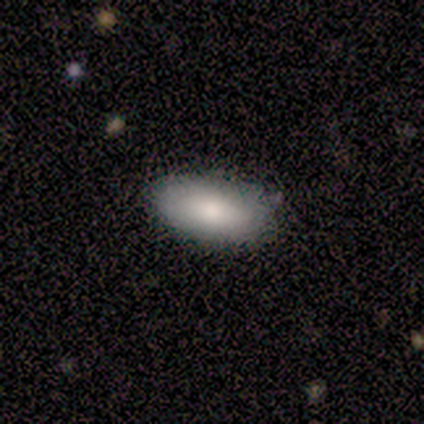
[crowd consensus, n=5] Smooth or featured? smooth (100%)
How rounded? in between (100%)
Merging? none (60%)